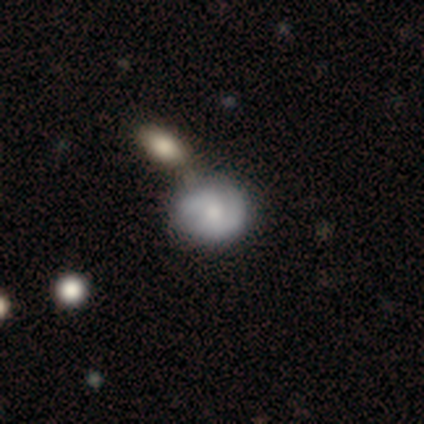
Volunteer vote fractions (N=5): smooth 80%, featured or disk 20%, star or artifact 0%. Down the decision tree: how rounded — round (75%); merging — none (60%).